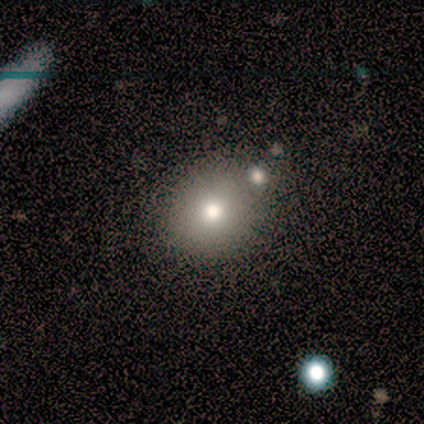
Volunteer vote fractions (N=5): Smooth or featured? 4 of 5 (80%) said smooth. How rounded? 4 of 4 (100%) said round. Merging? 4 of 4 (100%) said none.